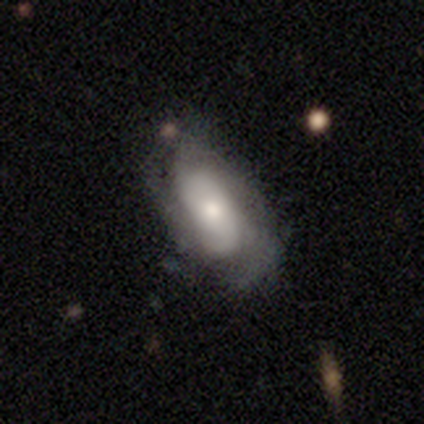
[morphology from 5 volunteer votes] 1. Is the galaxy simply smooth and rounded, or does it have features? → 80% featured or disk, 20% smooth, 0% star or artifact.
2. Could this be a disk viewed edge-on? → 100% no, 0% yes.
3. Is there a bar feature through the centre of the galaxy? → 75% no, 25% weak, 0% strong.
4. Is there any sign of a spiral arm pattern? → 100% yes, 0% no.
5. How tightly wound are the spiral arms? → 75% medium, 25% loose, 0% tight.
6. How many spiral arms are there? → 75% can't tell, 25% 2, 0% 1, 0% 3, 0% 4, 0% more than 4.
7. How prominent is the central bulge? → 75% moderate, 25% small, 0% dominant, 0% large, 0% none.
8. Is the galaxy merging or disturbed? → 80% minor disturbance, 20% none, 0% major disturbance, 0% merger.